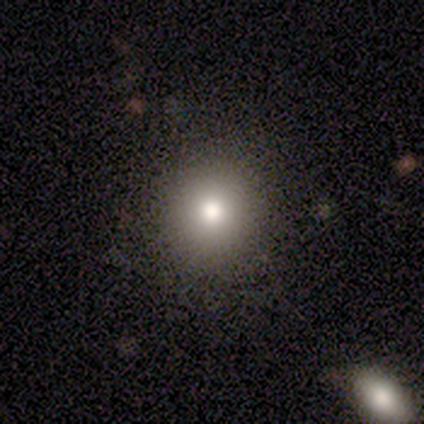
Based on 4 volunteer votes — smooth-or-featured: smooth: 50% (tied) | star or artifact: 50% (tied) | featured or disk: 0%
  how-rounded: round: 100% | in between: 0% | cigar-shaped: 0%
  merging: none: 100% | minor disturbance: 0% | major disturbance: 0% | merger: 0%